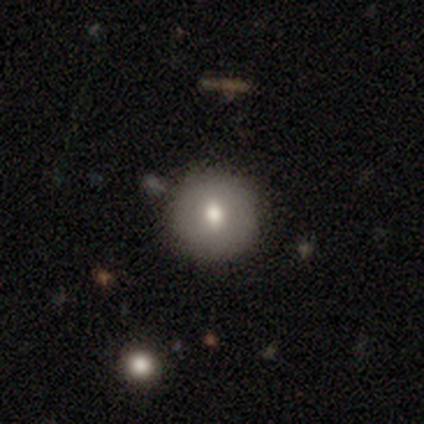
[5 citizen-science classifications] Smooth or featured? 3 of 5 (60%) said smooth. How rounded? 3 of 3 (100%) said round. Merging? 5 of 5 (100%) said none.